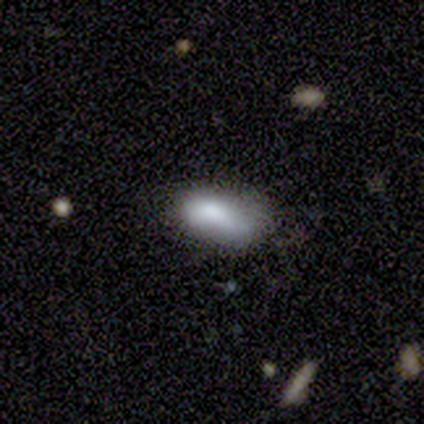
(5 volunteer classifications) Smooth or featured?
  - smooth: 80% *
  - star or artifact: 20%
  - featured or disk: 0%
How rounded?
  - in between: 100% *
  - round: 0%
  - cigar-shaped: 0%
Merging?
  - none: 50% * (tied)
  - minor disturbance: 50% * (tied)
  - major disturbance: 0%
  - merger: 0%